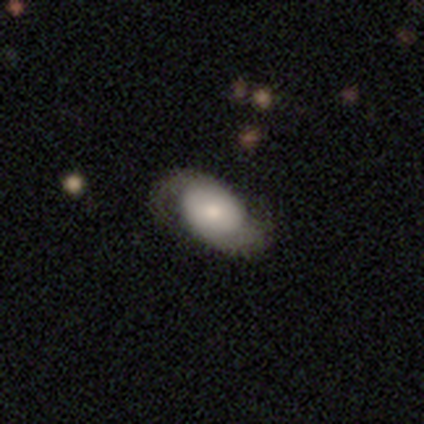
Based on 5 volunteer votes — smooth-or-featured: featured or disk: 80% | star or artifact: 20% | smooth: 0%
  disk-edge-on: no: 100% | yes: 0%
    bar: no: 75% | weak: 25% | strong: 0%
    has-spiral-arms: yes: 100% | no: 0%
      spiral-winding: tight: 50% | medium: 25% | loose: 25%
      spiral-arm-count: 2: 100% | 1: 0% | 3: 0% | 4: 0% | more than 4: 0% | can't tell: 0%
    bulge-size: moderate: 75% | small: 25% | dominant: 0% | large: 0% | none: 0%
  merging: none: 75% | minor disturbance: 25% | major disturbance: 0% | merger: 0%